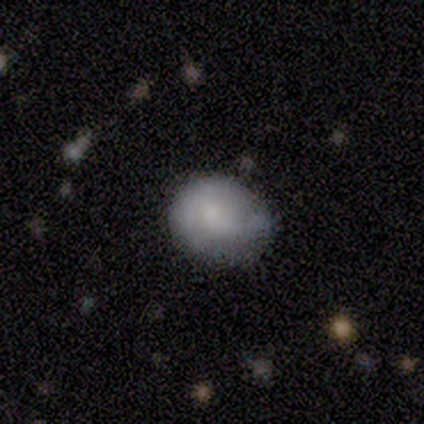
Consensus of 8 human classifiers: smooth_or_featured: smooth (p=0.75) [alt: featured or disk p=0.12]
how_rounded: in between (p=0.83) [alt: round p=0.17]
merging: none (p=0.57) [alt: minor disturbance p=0.43]